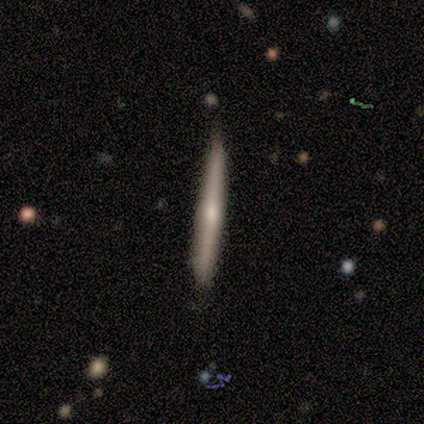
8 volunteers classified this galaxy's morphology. Overall: smooth (62%; featured or disk 25%). How rounded: cigar-shaped (100%). Merging: none (86%).